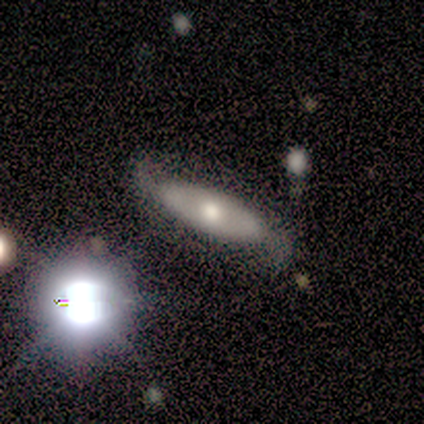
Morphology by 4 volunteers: Smooth or featured? featured or disk (75%)
Edge-on disk? no (100%)
Bar? no (67%)
Spiral arms? yes (100%)
Spiral winding? loose (67%)
Spiral arm count? 2 (100%)
Bulge size? moderate (100%)
Merging? none (75%)